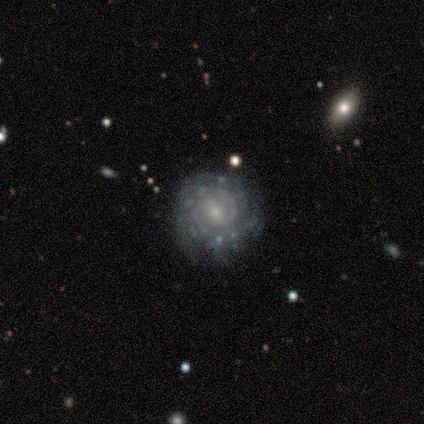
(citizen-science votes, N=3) featured or disk 100%, smooth 0%, star or artifact 0%. Down the decision tree: edge-on disk — no (100%); bar — no (67%); spiral arms — yes (100%); spiral arm count — 2 (33%, tied with 3 and can't tell); spiral winding — tight (100%); bulge size — moderate (67%); merging — none (100%).